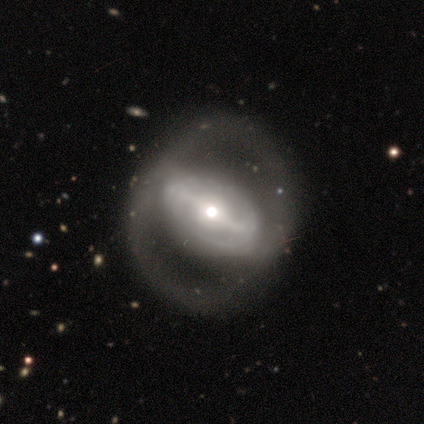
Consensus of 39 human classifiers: Overall: featured or disk (95%). Edge-on disk: no (95%). Bar: strong (71%). Spiral arms: yes (54%; no 46%). Spiral arm count: 2 (68%). Spiral winding: medium (53%; tight 32%). Bulge size: moderate (60%; small 26%). Merging: none (41%; major disturbance 26%).